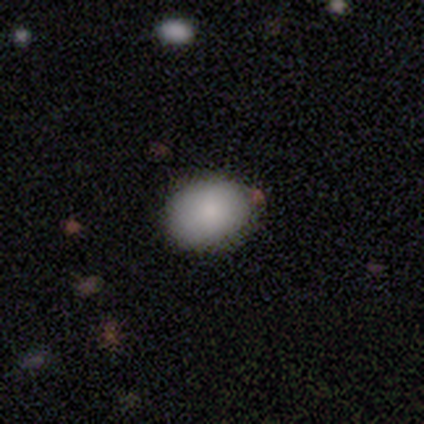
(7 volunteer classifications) Smooth or featured? 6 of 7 (86%) said smooth. How rounded? 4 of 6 (67%) said in between. Merging? 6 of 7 (86%) said none.